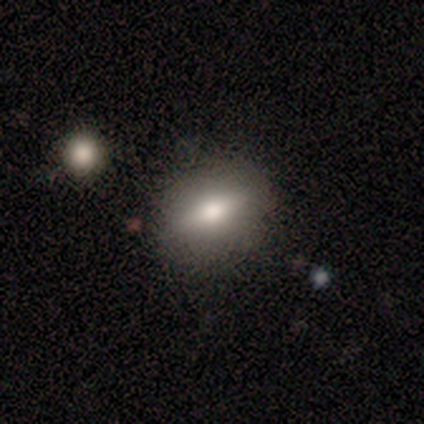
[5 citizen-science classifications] This is likely a smooth galaxy (60%). How rounded: clearly in between (100%). Merging: clearly none (100%).